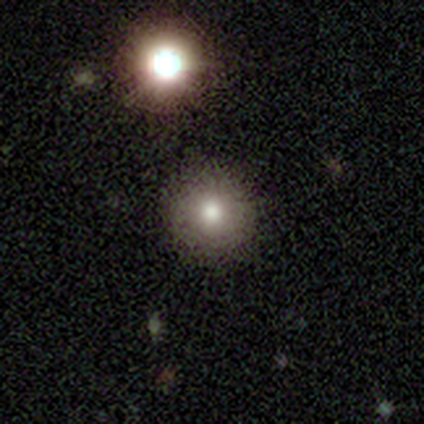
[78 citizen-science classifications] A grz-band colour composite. It shows a smooth galaxy with no disk features (81%) that is round (94%). Merging: none (44%).